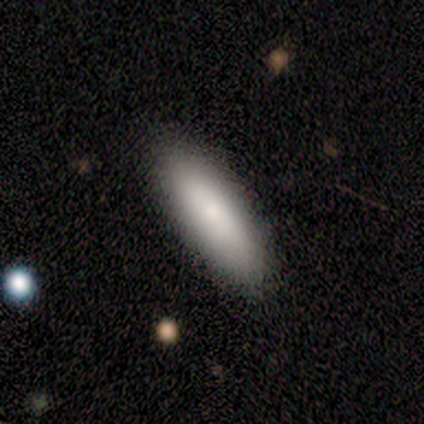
A smooth galaxy with no disk features (60%) that is cigar-shaped (67%).

Vote fractions:
- Smooth or featured? smooth: 60% / featured or disk: 20% / star or artifact: 20%
- How rounded? cigar-shaped: 67% / in between: 33% / round: 0%
- Merging? none: 75% / minor disturbance: 25% / major disturbance: 0% / merger: 0%